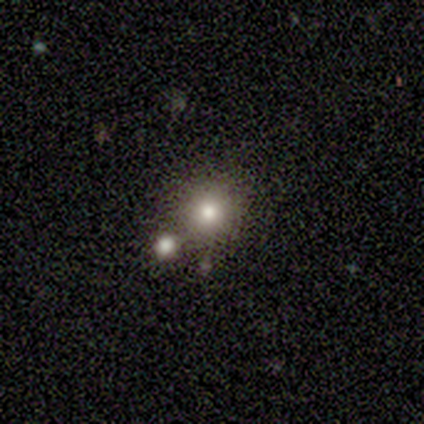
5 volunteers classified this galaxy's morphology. A smooth galaxy with no disk features (40%, tied with star or artifact) that is round (100%).

Vote fractions:
- Smooth or featured? smooth: 40% (tied) / star or artifact: 40% (tied) / featured or disk: 20%
- How rounded? round: 100% / in between: 0% / cigar-shaped: 0%
- Merging? none: 100% / minor disturbance: 0% / major disturbance: 0% / merger: 0%